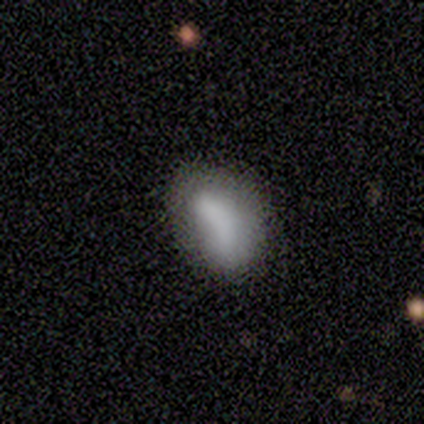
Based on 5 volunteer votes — This is clearly a smooth galaxy (100%). How rounded: clearly in between (100%). Merging: marginally none (40%, tied with minor disturbance).